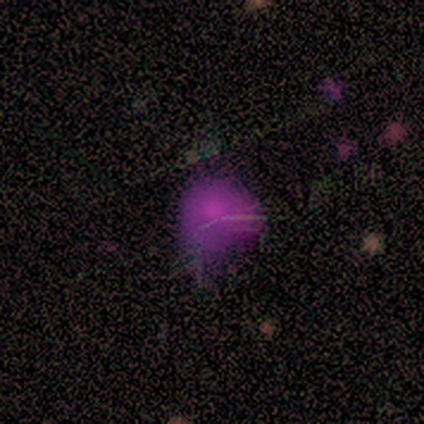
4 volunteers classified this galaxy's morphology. Q: Smooth or featured?
A: smooth (50%); tied with: star or artifact (50%)
Q: How rounded?
A: in between (50%); tied with: cigar-shaped (50%)
Q: Merging?
A: none (50%); tied with: minor disturbance (50%)